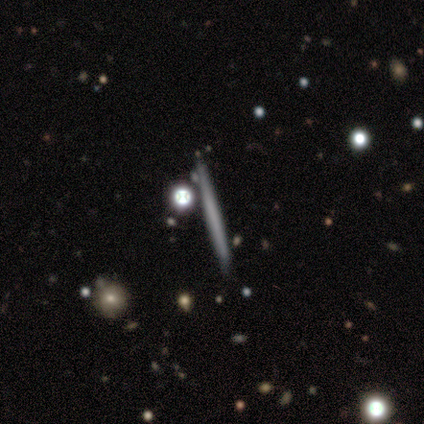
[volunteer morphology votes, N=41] Overall: featured or disk (49%; smooth 44%). Edge-on disk: yes (100%). Edge-on bulge: none (100%). Merging: none (82%).